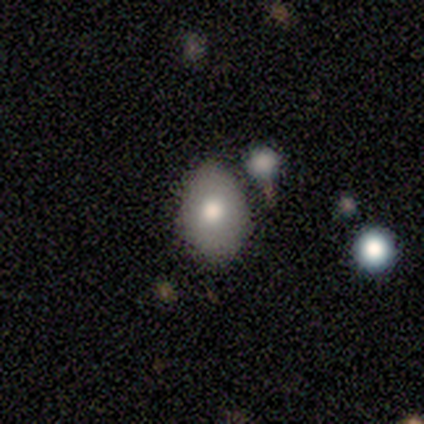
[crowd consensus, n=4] Q: Smooth or featured?
A: smooth (50%); runner-up: featured or disk (25%)
Q: How rounded?
A: in between (100%)
Q: Merging?
A: none (100%)